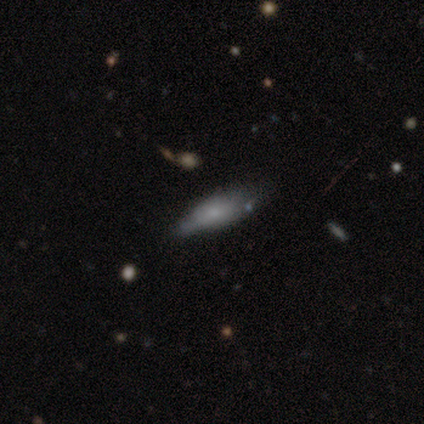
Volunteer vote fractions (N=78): This appears to be a smooth galaxy with no disk features (69%) that is in between round and cigar-shaped (72%). Merging: none (23%).